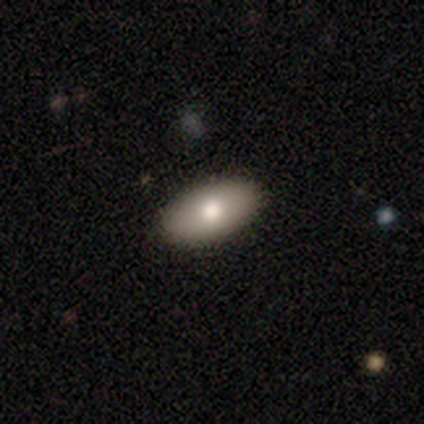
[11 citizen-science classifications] smooth 73%, featured or disk 27%, star or artifact 0%. Down the decision tree: how rounded — in between (88%); merging — none (100%).